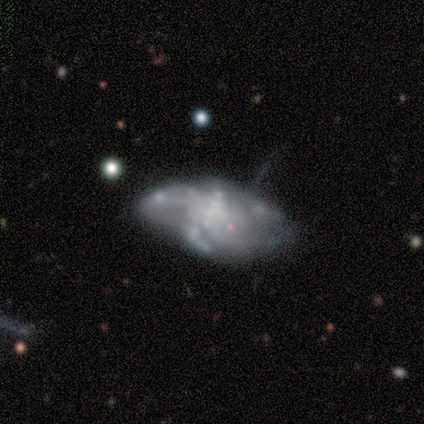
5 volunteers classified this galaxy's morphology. Volunteers were most divided on "merging": minor disturbance: 50%, none: 25%, major disturbance: 25%, merger: 0%. More confident: smooth or featured — featured or disk (80%); edge-on disk — no (75%); bar — no (67%); spiral arms — no (67%); bulge size — none (67%).